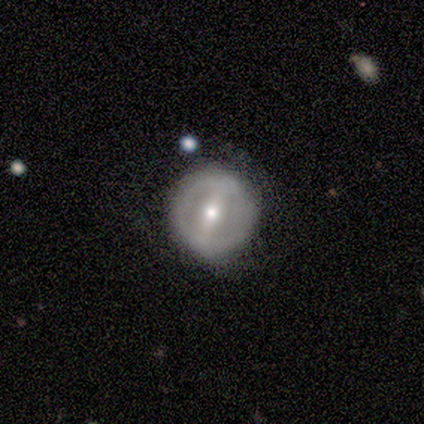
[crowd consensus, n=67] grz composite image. It shows a featured or disk galaxy (63%) with a strong bar (78%), no spiral arms (75%) and a moderate central bulge (65%). Merging: none (79%).